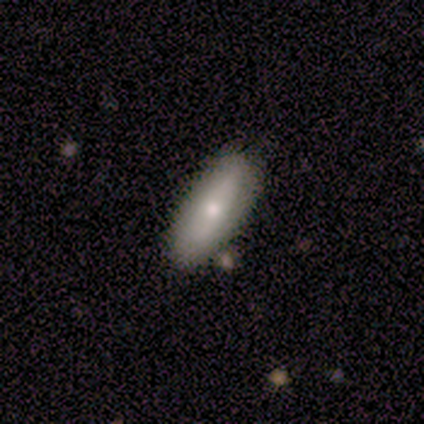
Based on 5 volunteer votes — This is likely a smooth galaxy (60%). How rounded: likely cigar-shaped (67%). Merging: clearly none (100%).